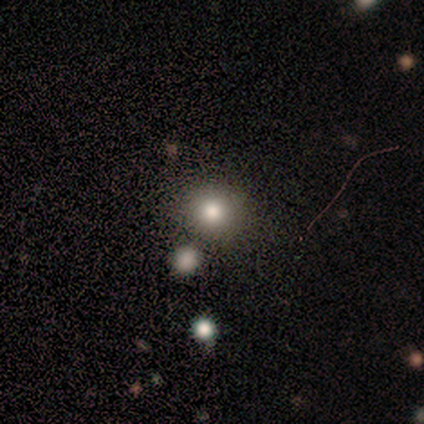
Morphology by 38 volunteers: A smooth galaxy with no disk features (71%) that is round (85%).

Vote fractions:
- Smooth or featured? smooth: 71% / star or artifact: 24% / featured or disk: 5%
- How rounded? round: 85% / in between: 15% / cigar-shaped: 0%
- Merging? none: 76% / merger: 14% / minor disturbance: 7% / major disturbance: 3%